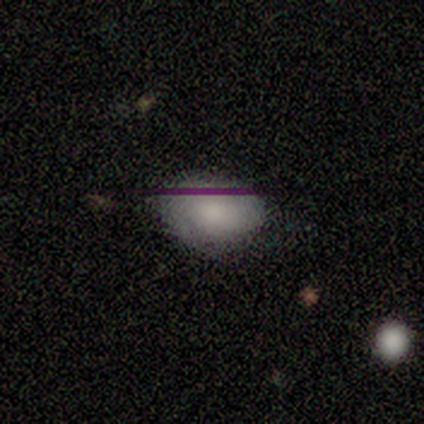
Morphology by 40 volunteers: Smooth or featured: smooth — 65% (featured or disk — 22%)
How rounded: in between — 73% (round — 27%)
Merging: none — 51% (minor disturbance — 11%)